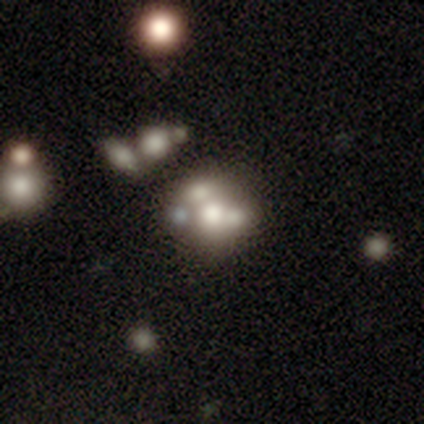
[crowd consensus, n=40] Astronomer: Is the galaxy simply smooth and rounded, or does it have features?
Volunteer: featured or disk — 50% (runner-up: smooth, 30%).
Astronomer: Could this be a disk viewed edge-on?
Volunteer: no — 100%.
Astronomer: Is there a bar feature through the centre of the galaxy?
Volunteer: no — 90%.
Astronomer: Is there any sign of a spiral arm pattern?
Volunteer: no — 95%.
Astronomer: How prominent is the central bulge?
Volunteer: moderate — 45% (runner-up: none, 25%).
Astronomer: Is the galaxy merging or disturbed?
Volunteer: merger — 62%.